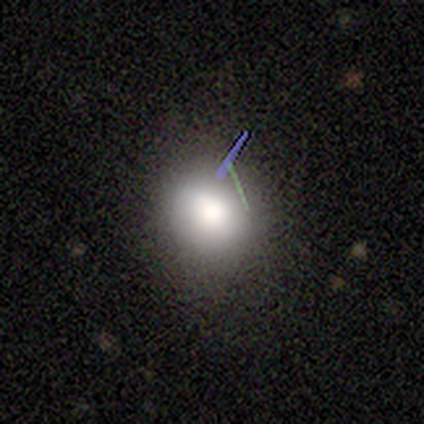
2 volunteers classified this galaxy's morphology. Smooth or featured? smooth (50%, tied with star or artifact)
How rounded? round (100%)
Merging? none (100%)